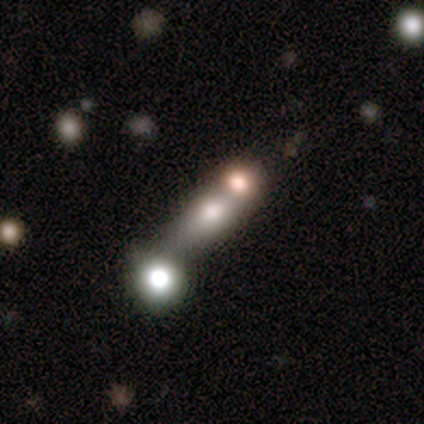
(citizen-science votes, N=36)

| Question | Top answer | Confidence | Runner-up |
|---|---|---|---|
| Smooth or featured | smooth | 50% | featured or disk (28%) |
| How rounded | in between | 50% | cigar-shaped (33%) |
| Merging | merger | 64% | none (25%) |